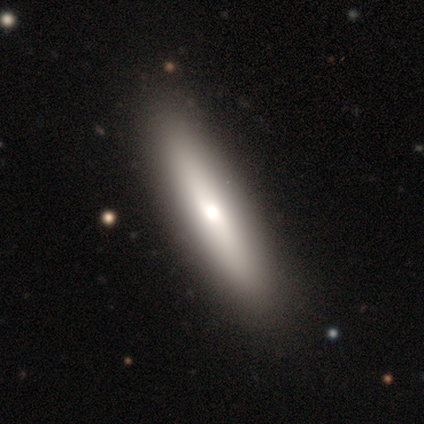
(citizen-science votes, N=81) Smooth or featured? 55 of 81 (68%) said smooth. How rounded? 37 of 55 (67%) said cigar-shaped. Merging? 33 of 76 (43%) said none.